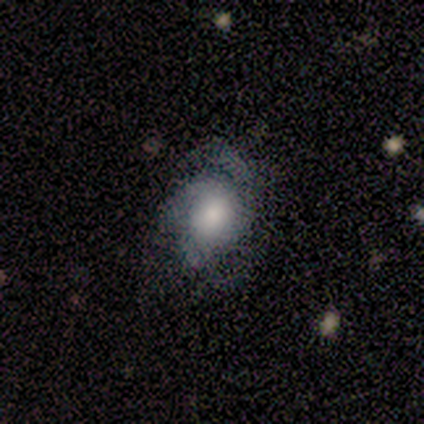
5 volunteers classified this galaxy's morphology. Q: Smooth or featured?
A: featured or disk (80%); runner-up: smooth (20%)
Q: Edge-on disk?
A: no (100%)
Q: Bar?
A: no (100%)
Q: Spiral arms?
A: yes (75%); runner-up: no (25%)
Q: Spiral winding?
A: tight (100%)
Q: Spiral arm count?
A: 2 (67%); runner-up: 1 (33%)
Q: Bulge size?
A: moderate (75%); runner-up: small (25%)
Q: Merging?
A: none (60%); runner-up: major disturbance (40%)